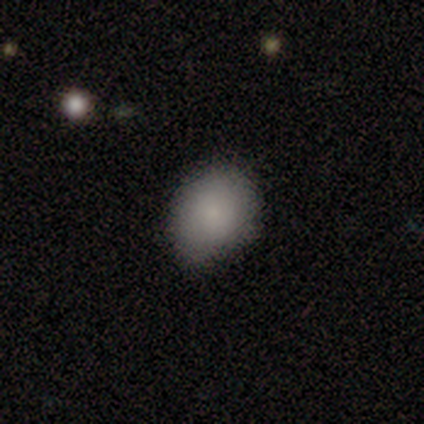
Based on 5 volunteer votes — smooth-or-featured: smooth: 100% | featured or disk: 0% | star or artifact: 0%
  how-rounded: round: 60% | in between: 40% | cigar-shaped: 0%
  merging: none: 100% | minor disturbance: 0% | major disturbance: 0% | merger: 0%